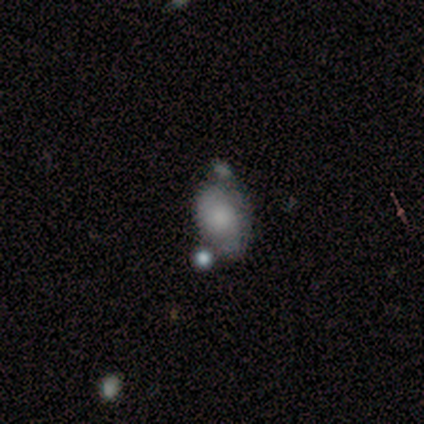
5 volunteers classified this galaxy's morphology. Smooth or featured? 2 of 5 (40%, tied with star or artifact) said smooth. How rounded? 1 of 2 (50%, tied with in between) said round. Merging? 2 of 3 (67%) said none.